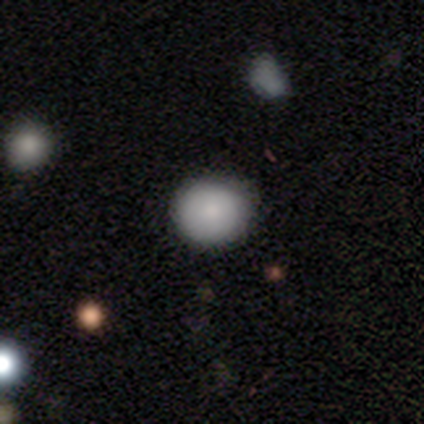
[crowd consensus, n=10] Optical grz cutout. It shows a smooth galaxy with no disk features (80%) that is round (100%). Merging: none (67%).